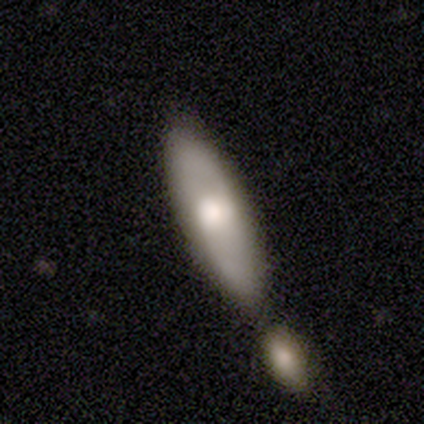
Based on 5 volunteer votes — featured or disk 60%, smooth 40%, star or artifact 0%. Down the decision tree: edge-on disk — no (100%); bar — weak (67%); spiral arms — yes (100%); spiral arm count — 2 (100%); spiral winding — loose (67%); bulge size — moderate (67%); merging — none (40%, tied with merger).